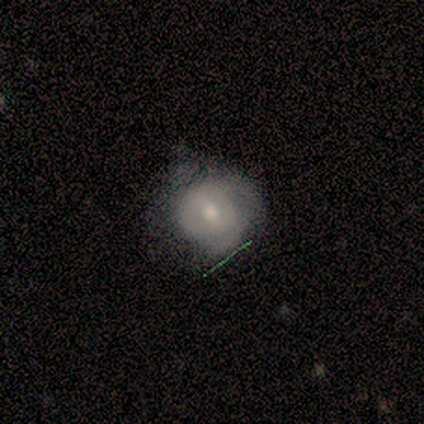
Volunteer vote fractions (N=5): smooth-or-featured: smooth: 40% (tied) | featured or disk: 40% (tied) | star or artifact: 20%
  how-rounded: round: 50% (tied) | in between: 50% (tied) | cigar-shaped: 0%
  merging: none: 50% (tied) | minor disturbance: 50% (tied) | major disturbance: 0% | merger: 0%